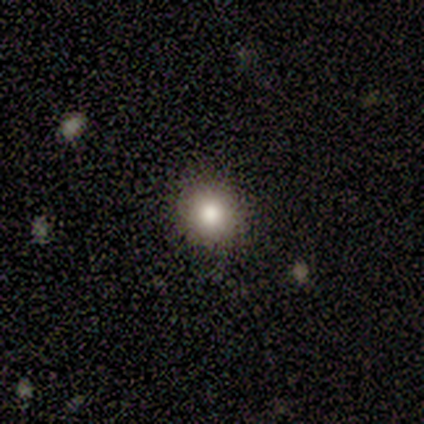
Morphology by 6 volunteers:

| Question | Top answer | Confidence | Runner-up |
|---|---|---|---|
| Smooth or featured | smooth | 100% | — |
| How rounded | round | 67% | in between (33%) |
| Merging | none | 67% | minor disturbance (17%) |